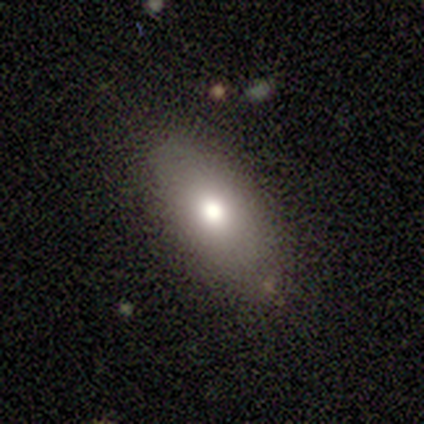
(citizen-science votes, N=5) Smooth or featured?
  - smooth: 100% *
  - featured or disk: 0%
  - star or artifact: 0%
How rounded?
  - in between: 100% *
  - round: 0%
  - cigar-shaped: 0%
Merging?
  - none: 80% *
  - minor disturbance: 20%
  - major disturbance: 0%
  - merger: 0%